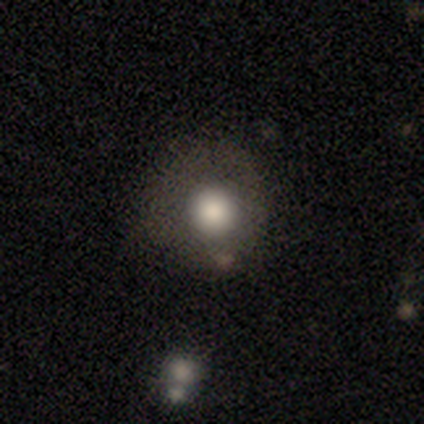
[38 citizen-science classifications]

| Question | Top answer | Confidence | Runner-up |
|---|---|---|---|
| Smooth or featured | smooth | 68% | featured or disk (21%) |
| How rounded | round | 96% | in between (4%) |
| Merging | none | 65% | minor disturbance (21%) |